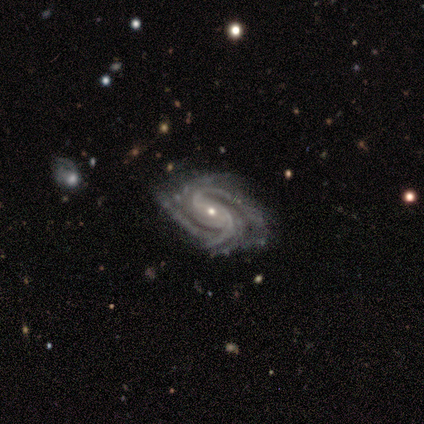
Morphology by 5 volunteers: featured or disk 100%, smooth 0%, star or artifact 0%. Down the decision tree: edge-on disk — no (100%); bar — weak (40%, tied with no); spiral arms — yes (100%); spiral arm count — 2 (60%); spiral winding — medium (60%); bulge size — small (60%); merging — none (80%).